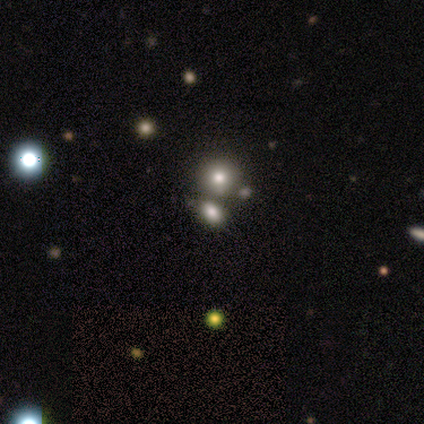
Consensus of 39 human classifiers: smooth-or-featured: smooth: 74% | star or artifact: 18% | featured or disk: 8%
  how-rounded: round: 69% | in between: 31% | cigar-shaped: 0%
  merging: none: 56% | merger: 41% | minor disturbance: 3% | major disturbance: 0%